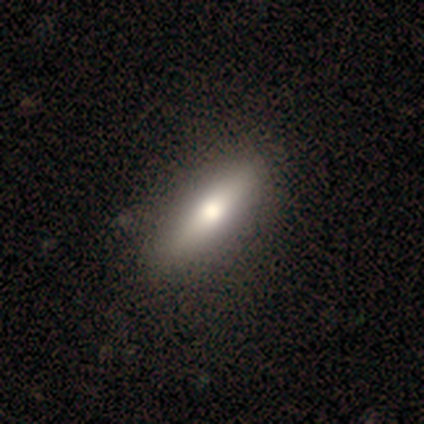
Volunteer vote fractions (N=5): This appears to be a smooth galaxy with no disk features (80%) that is cigar-shaped (100%). Merging: none (100%).